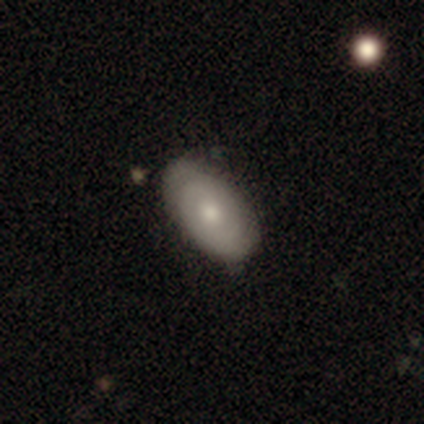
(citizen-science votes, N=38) Smooth or featured?
  - featured or disk: 55% *
  - smooth: 37%
  - star or artifact: 8%
Edge-on disk?
  - no: 95% *
  - yes: 5%
Bar?
  - no: 75% *
  - weak: 20%
  - strong: 5%
Spiral arms?
  - yes: 65% *
  - no: 35%
Spiral winding?
  - tight: 77% *
  - medium: 15%
  - loose: 8%
Spiral arm count?
  - 2: 54% *
  - can't tell: 46%
  - 1: 0%
  - 3: 0%
  - 4: 0%
  - more than 4: 0%
Bulge size?
  - moderate: 55% *
  - small: 35%
  - large: 5%
  - none: 5%
  - dominant: 0%
Merging?
  - none: 83% *
  - minor disturbance: 14%
  - major disturbance: 3%
  - merger: 0%